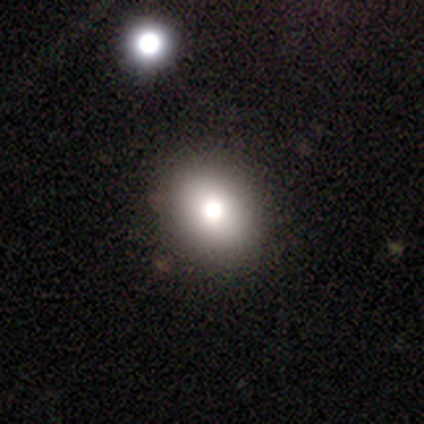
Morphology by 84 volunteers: type=smooth (81%); roundness=round (60%); merging=none (46%).